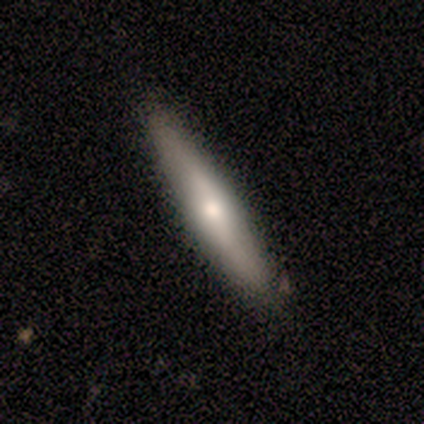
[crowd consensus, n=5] Volunteers were most divided on "how rounded": cigar-shaped: 75%, in between: 25%, round: 0%. More confident: merging — none (100%); smooth or featured — smooth (80%).